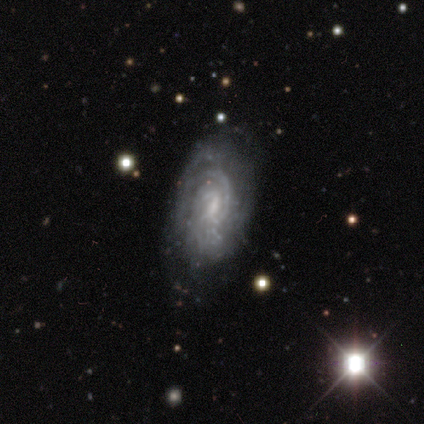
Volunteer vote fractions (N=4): smooth-or-featured: featured or disk: 75% | star or artifact: 25% | smooth: 0%
  disk-edge-on: no: 100% | yes: 0%
    bar: weak: 100% | strong: 0% | no: 0%
    has-spiral-arms: yes: 100% | no: 0%
      spiral-winding: tight: 67% | medium: 33% | loose: 0%
      spiral-arm-count: 2: 67% | can't tell: 33% | 1: 0% | 3: 0% | 4: 0% | more than 4: 0%
    bulge-size: small: 67% | moderate: 33% | dominant: 0% | large: 0% | none: 0%
  merging: none: 67% | merger: 33% | minor disturbance: 0% | major disturbance: 0%